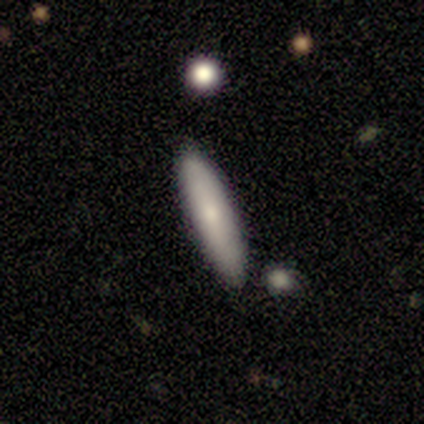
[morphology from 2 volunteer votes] Smooth or featured? smooth (100%)
How rounded? in between (100%)
Merging? minor disturbance (100%)